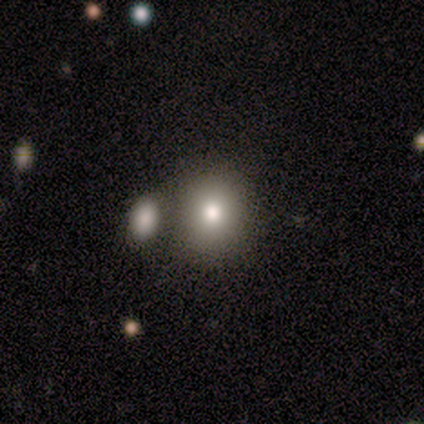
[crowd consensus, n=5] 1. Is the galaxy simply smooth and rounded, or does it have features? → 80% smooth, 20% star or artifact, 0% featured or disk.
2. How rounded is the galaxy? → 75% round, 25% in between, 0% cigar-shaped.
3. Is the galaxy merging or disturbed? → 50% none, 25% major disturbance, 25% merger, 0% minor disturbance.